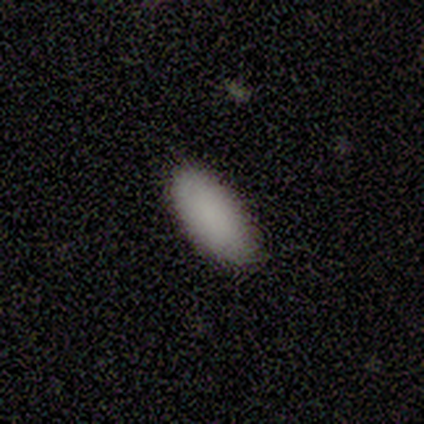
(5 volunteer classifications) A smooth galaxy with no disk features (100%) that is in between round and cigar-shaped (100%).

Vote fractions:
- Smooth or featured? smooth: 100% / featured or disk: 0% / star or artifact: 0%
- How rounded? in between: 100% / round: 0% / cigar-shaped: 0%
- Merging? none: 60% / minor disturbance: 40% / major disturbance: 0% / merger: 0%